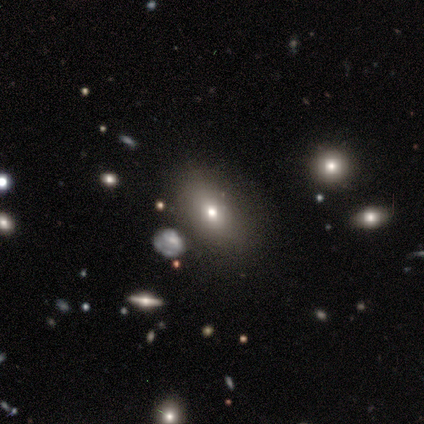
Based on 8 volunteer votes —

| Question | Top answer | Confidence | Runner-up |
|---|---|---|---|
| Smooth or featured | smooth | 75% | featured or disk (25%) |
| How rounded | in between | 83% | round (17%) |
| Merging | none | 62% | minor disturbance (38%) |